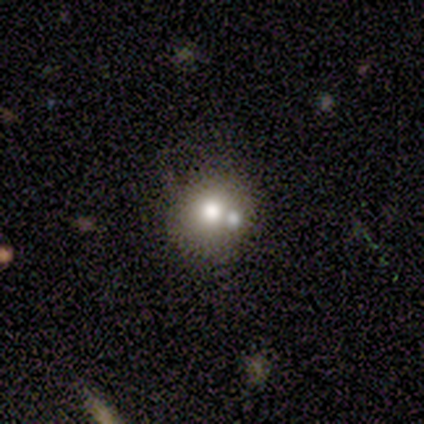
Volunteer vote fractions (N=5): smooth-or-featured: smooth: 100% | featured or disk: 0% | star or artifact: 0%
  how-rounded: round: 100% | in between: 0% | cigar-shaped: 0%
  merging: none: 60% | major disturbance: 20% | merger: 20% | minor disturbance: 0%